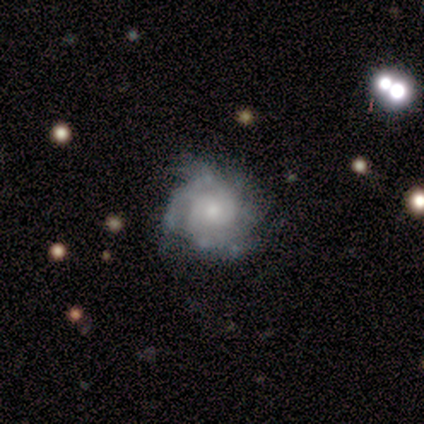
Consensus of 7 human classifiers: smooth-or-featured: featured or disk: 100% | smooth: 0% | star or artifact: 0%
  disk-edge-on: no: 100% | yes: 0%
    bar: no: 86% | weak: 14% | strong: 0%
    has-spiral-arms: yes: 86% | no: 14%
      spiral-winding: tight: 100% | medium: 0% | loose: 0%
      spiral-arm-count: 4: 50% | can't tell: 33% | 3: 17% | 1: 0% | 2: 0% | more than 4: 0%
    bulge-size: small: 100% | dominant: 0% | large: 0% | moderate: 0% | none: 0%
  merging: none: 86% | minor disturbance: 14% | major disturbance: 0% | merger: 0%